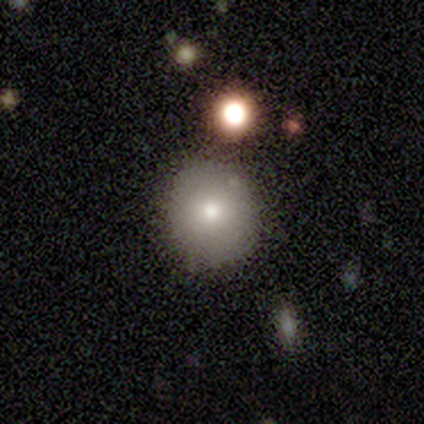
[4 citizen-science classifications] Volunteers were most divided on "merging": none: 50%, minor disturbance: 25%, major disturbance: 25%, merger: 0%. More confident: how rounded — round (100%); smooth or featured — smooth (75%).